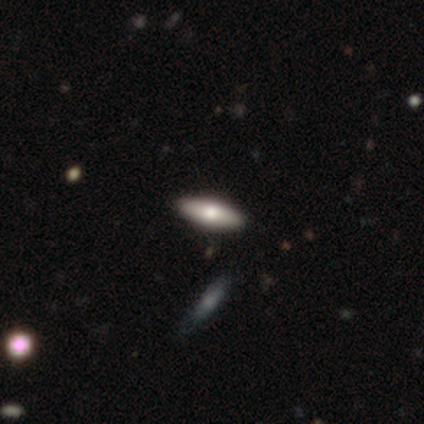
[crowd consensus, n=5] smooth-or-featured: smooth: 60% | featured or disk: 40% | star or artifact: 0%
  how-rounded: cigar-shaped: 67% | in between: 33% | round: 0%
  merging: none: 100% | minor disturbance: 0% | major disturbance: 0% | merger: 0%